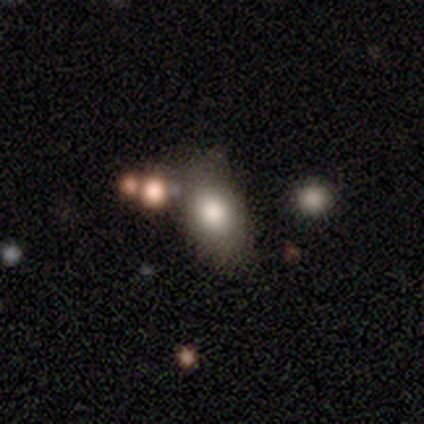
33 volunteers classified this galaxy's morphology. A smooth galaxy with no disk features (94%) that is in between round and cigar-shaped (74%).

Vote fractions:
- Smooth or featured? smooth: 94% / featured or disk: 3% / star or artifact: 3%
- How rounded? in between: 74% / round: 26% / cigar-shaped: 0%
- Merging? merger: 59% / none: 0% / minor disturbance: 0% / major disturbance: 0%